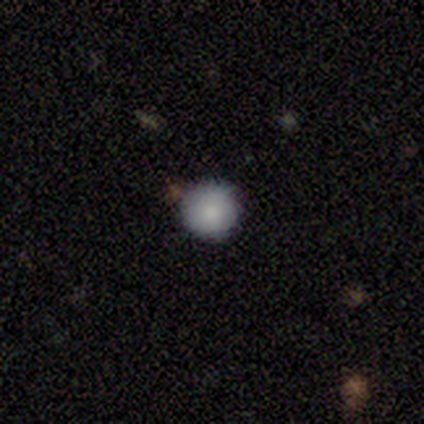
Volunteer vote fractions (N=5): Morphology: type=smooth (100%); roundness=round (100%); merging=none (100%).